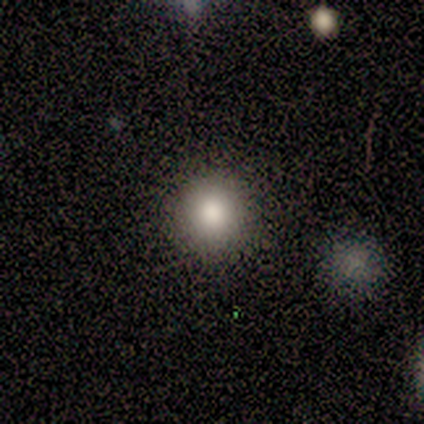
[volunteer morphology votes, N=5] A smooth galaxy with no disk features (80%) that is round (100%). Merging: none (100%).